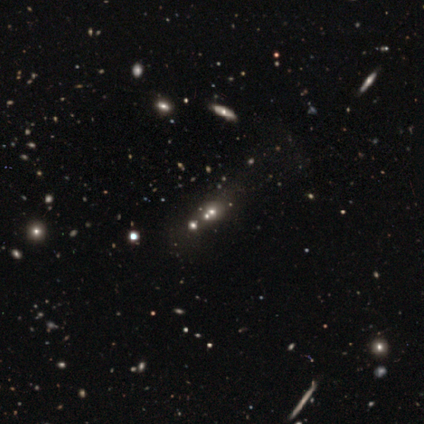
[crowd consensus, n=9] This is likely a star or artifact rather than a galaxy (67%).